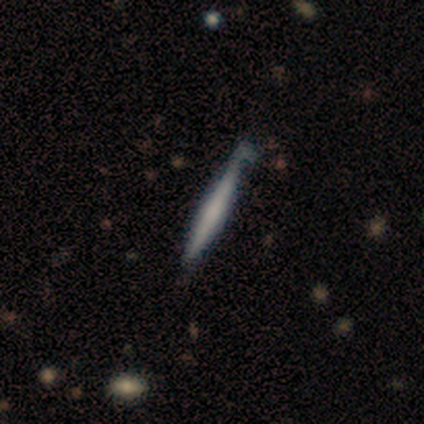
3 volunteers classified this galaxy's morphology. This is clearly a smooth galaxy (100%). How rounded: clearly cigar-shaped (100%). Merging: marginally none (33%, tied with minor disturbance and major disturbance).